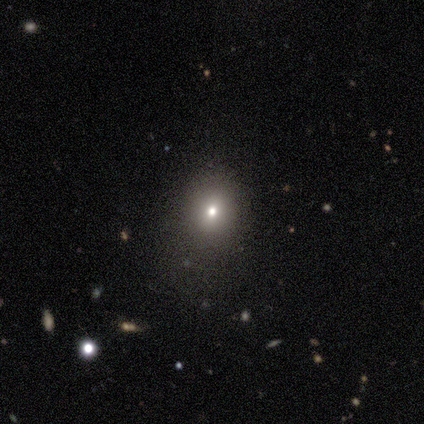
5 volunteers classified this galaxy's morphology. Smooth or featured? 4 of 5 (80%) said smooth. How rounded? 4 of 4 (100%) said round. Merging? 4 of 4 (100%) said none.